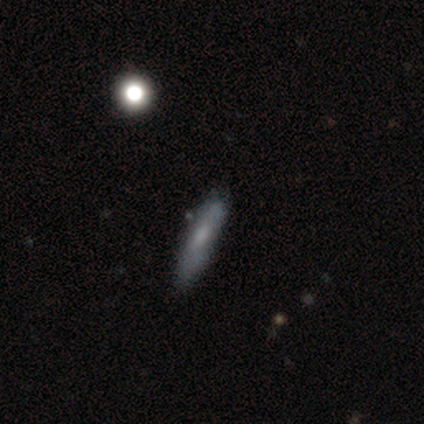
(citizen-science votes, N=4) A smooth galaxy with no disk features (75%) that is cigar-shaped (67%).

Vote fractions:
- Smooth or featured? smooth: 75% / featured or disk: 25% / star or artifact: 0%
- How rounded? cigar-shaped: 67% / in between: 33% / round: 0%
- Merging? none: 75% / minor disturbance: 25% / major disturbance: 0% / merger: 0%